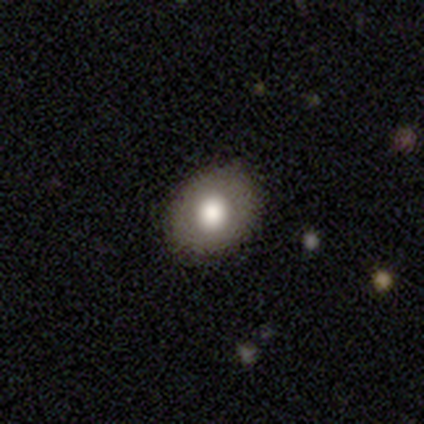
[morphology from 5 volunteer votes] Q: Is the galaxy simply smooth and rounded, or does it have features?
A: smooth — 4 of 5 (80%).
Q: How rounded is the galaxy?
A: in between — 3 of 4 (75%).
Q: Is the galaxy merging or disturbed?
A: none — 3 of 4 (75%).